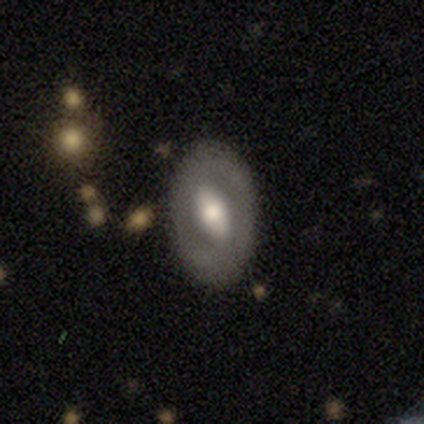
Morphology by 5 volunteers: smooth_or_featured: featured or disk (p=0.80) [alt: smooth p=0.20]
disk_edge_on: no (p=1.00)
bar: strong (p=0.50) [alt: weak p=0.25]
has_spiral_arms: no (p=0.75) [alt: yes p=0.25]
bulge_size: large (p=0.50) [tied with: moderate p=0.50]
merging: none (p=0.80) [alt: minor disturbance p=0.20]